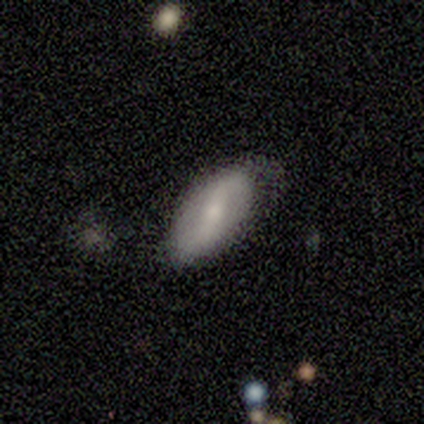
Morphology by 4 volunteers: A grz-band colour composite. It shows a smooth galaxy with no disk features (75%) that is in between round and cigar-shaped (100%). Merging: minor disturbance (50%).